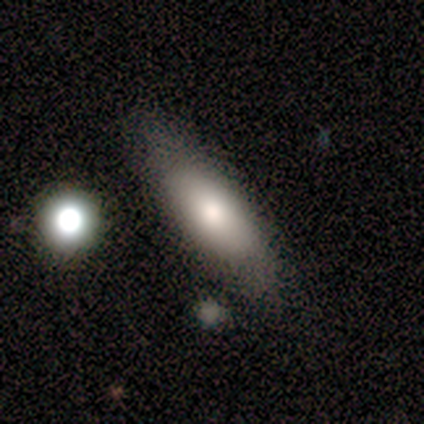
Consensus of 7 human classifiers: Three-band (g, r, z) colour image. It shows a smooth galaxy with no disk features (57%) that is in between round and cigar-shaped (50%, tied with cigar-shaped). Merging: none (71%).